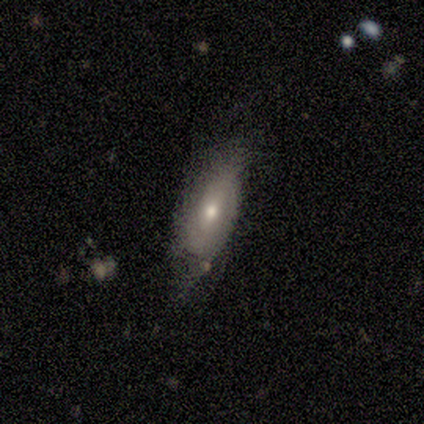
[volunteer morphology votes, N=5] Overall: smooth (80%). How rounded: in between (100%). Merging: none (60%; minor disturbance 20%).